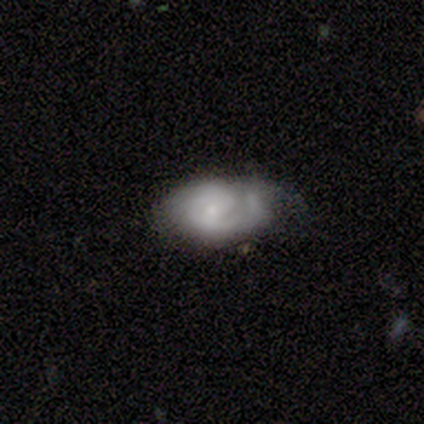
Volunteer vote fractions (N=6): A featured or disk galaxy (67%) with a weak bar (50%, tied with no), 1 (50%, tied with 2) medium (50%) spiral arms (100%) and a small central bulge (50%). Merging: none (83%).